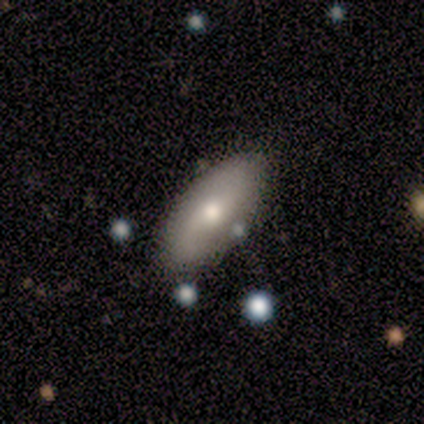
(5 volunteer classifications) smooth-or-featured: featured or disk: 60% | smooth: 40% | star or artifact: 0%
  disk-edge-on: no: 67% | yes: 33%
    bar: weak: 50% (tied) | no: 50% (tied) | strong: 0%
    has-spiral-arms: yes: 100% | no: 0%
      spiral-winding: loose: 100% | tight: 0% | medium: 0%
      spiral-arm-count: 2: 100% | 1: 0% | 3: 0% | 4: 0% | more than 4: 0% | can't tell: 0%
    bulge-size: moderate: 50% (tied) | small: 50% (tied) | dominant: 0% | large: 0% | none: 0%
  merging: none: 80% | major disturbance: 20% | minor disturbance: 0% | merger: 0%